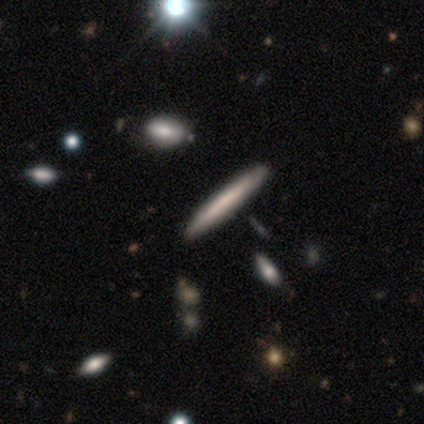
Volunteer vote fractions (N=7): smooth-or-featured: smooth: 57% | featured or disk: 43% | star or artifact: 0%
  how-rounded: cigar-shaped: 100% | round: 0% | in between: 0%
  merging: none: 86% | minor disturbance: 14% | major disturbance: 0% | merger: 0%